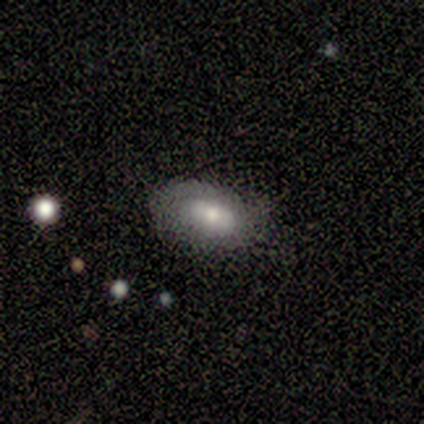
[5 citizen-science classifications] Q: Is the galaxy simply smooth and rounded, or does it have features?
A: smooth — 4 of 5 (80%).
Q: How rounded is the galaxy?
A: in between — 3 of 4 (75%).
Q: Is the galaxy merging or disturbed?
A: none — 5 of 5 (100%).